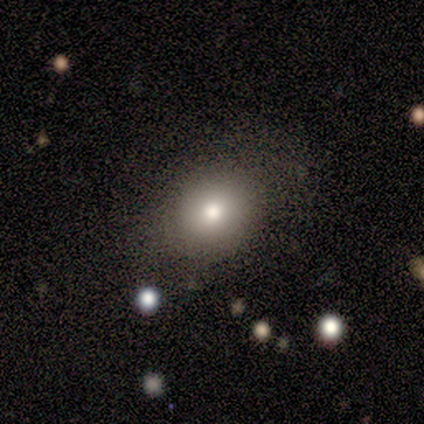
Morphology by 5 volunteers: A star or artifact, not a galaxy (60%).